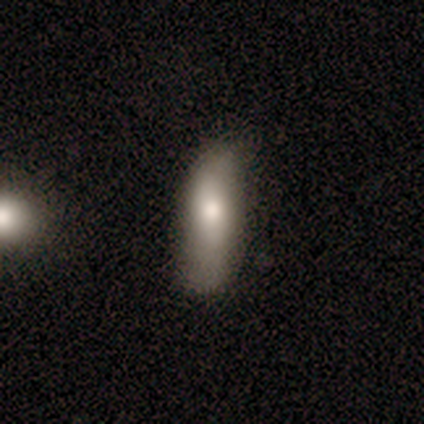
Smooth or featured: smooth — 75% (featured or disk — 25%)
How rounded: in between — 67% (cigar-shaped — 33%)
Merging: none — 75% (minor disturbance — 25%)